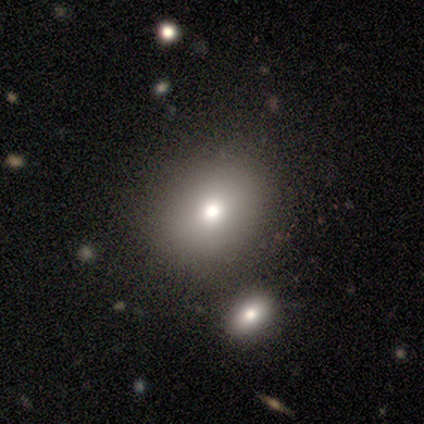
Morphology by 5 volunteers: Smooth or featured?
  - smooth: 60% *
  - star or artifact: 40%
  - featured or disk: 0%
How rounded?
  - in between: 100% *
  - round: 0%
  - cigar-shaped: 0%
Merging?
  - none: 67% *
  - minor disturbance: 33%
  - major disturbance: 0%
  - merger: 0%